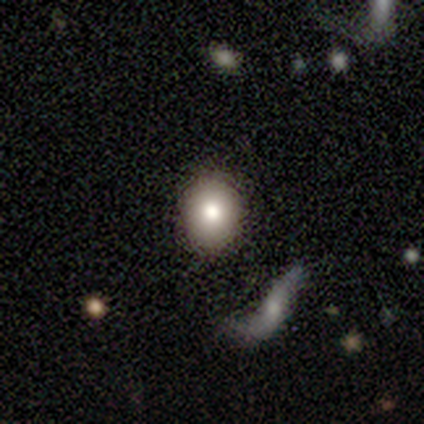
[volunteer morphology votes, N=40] Smooth or featured? smooth (82%)
How rounded? round (67%)
Merging? none (82%)